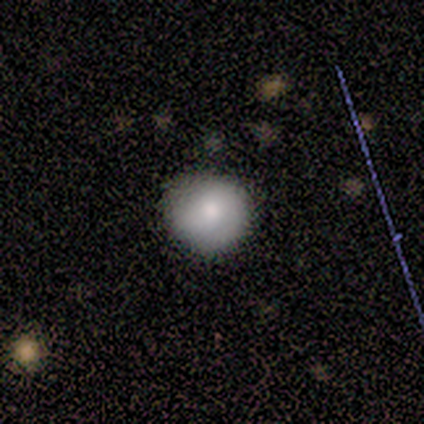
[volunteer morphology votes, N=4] smooth_or_featured: smooth (p=1.00)
how_rounded: round (p=1.00)
merging: none (p=1.00)